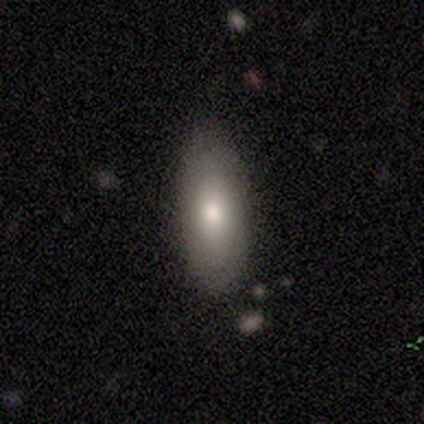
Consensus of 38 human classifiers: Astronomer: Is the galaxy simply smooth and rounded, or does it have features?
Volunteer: smooth — 76%.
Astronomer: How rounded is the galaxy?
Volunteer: in between — 83%.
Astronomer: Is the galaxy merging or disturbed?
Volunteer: none — 79%.